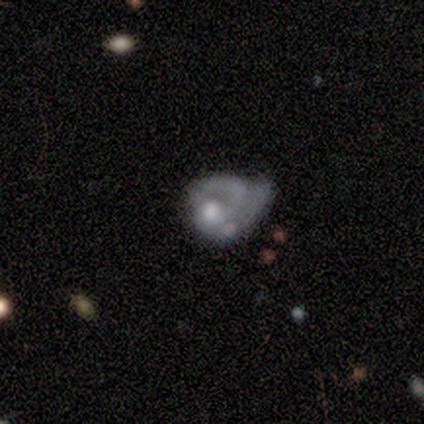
smooth-or-featured: smooth: 60% | featured or disk: 40% | star or artifact: 0%
  how-rounded: in between: 100% | round: 0% | cigar-shaped: 0%
  merging: major disturbance: 80% | merger: 20% | none: 0% | minor disturbance: 0%